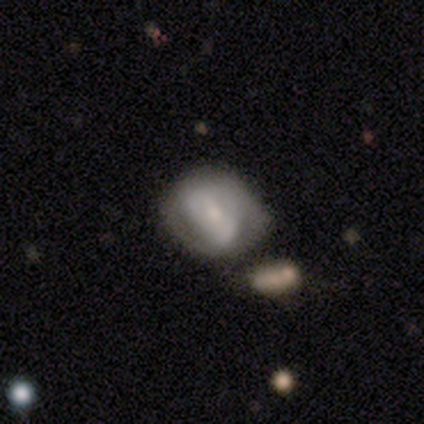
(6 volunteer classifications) Morphology: type=smooth (67%); roundness=round (50%, tied with in between); merging=none (40%, tied with minor disturbance).